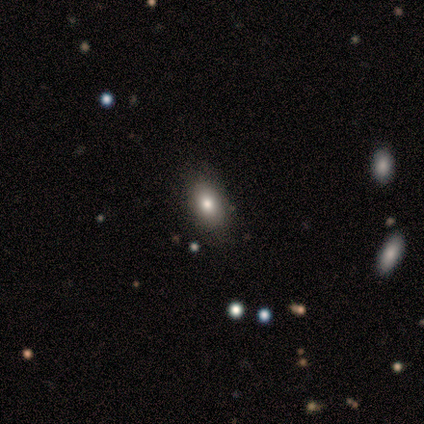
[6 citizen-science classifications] This is likely a smooth galaxy (67%). How rounded: likely in between (75%). Merging: clearly none (83%).